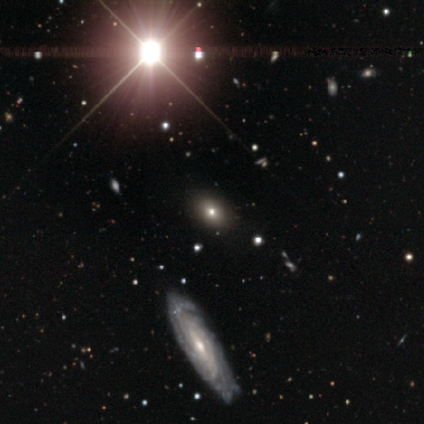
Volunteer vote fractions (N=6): Smooth or featured? 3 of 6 (50%) said smooth. How rounded? 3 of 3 (100%) said in between. Merging? 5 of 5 (100%) said none.